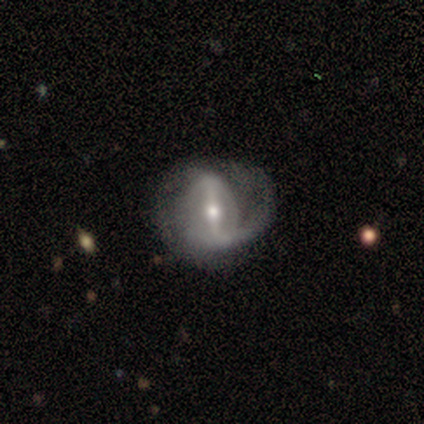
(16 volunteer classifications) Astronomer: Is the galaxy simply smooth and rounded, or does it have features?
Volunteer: featured or disk — 94%.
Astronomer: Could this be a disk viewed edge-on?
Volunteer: no — 100%.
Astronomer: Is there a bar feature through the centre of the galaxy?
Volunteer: strong — 67%.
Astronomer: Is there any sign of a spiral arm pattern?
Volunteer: yes — 87%.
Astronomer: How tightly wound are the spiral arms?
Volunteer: medium — 38%, tied with loose at 38%.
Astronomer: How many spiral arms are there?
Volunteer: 1 — 62%.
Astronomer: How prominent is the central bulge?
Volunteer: moderate — 73%.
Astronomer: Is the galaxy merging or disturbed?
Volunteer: none — 56%.